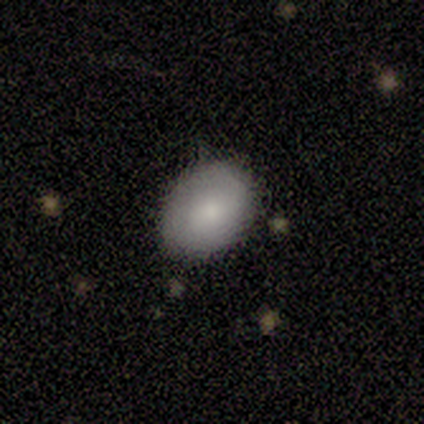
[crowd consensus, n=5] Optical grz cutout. It shows a smooth galaxy with no disk features (100%) that is in between round and cigar-shaped (60%). Merging: none (100%).